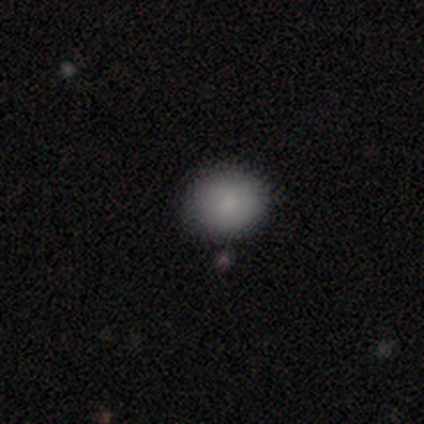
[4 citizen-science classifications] Overall: smooth (75%). How rounded: round (100%). Merging: none (100%).